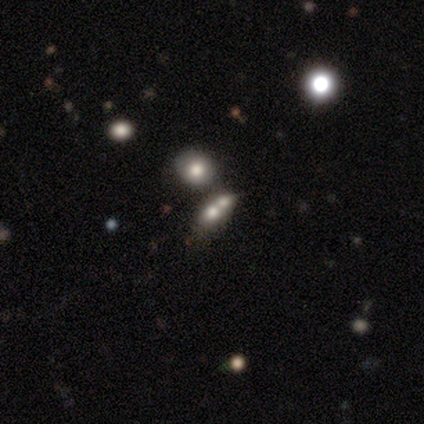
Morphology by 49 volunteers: smooth_or_featured: smooth (p=0.43) [alt: featured or disk p=0.29]
how_rounded: round (p=0.52) [alt: in between p=0.38]
merging: merger (p=0.66) [alt: none p=0.20]